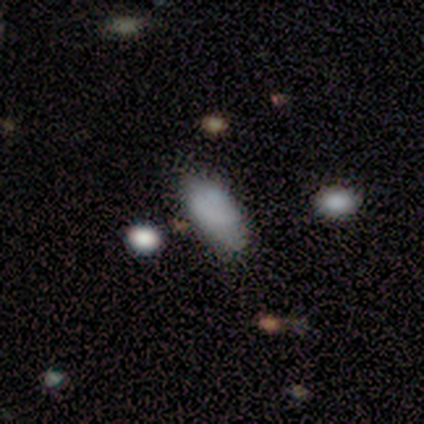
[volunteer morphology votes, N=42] Volunteers were most divided on "merging": none: 65%, minor disturbance: 28%, merger: 5%, major disturbance: 2%. More confident: how rounded — in between (92%); smooth or featured — smooth (88%).